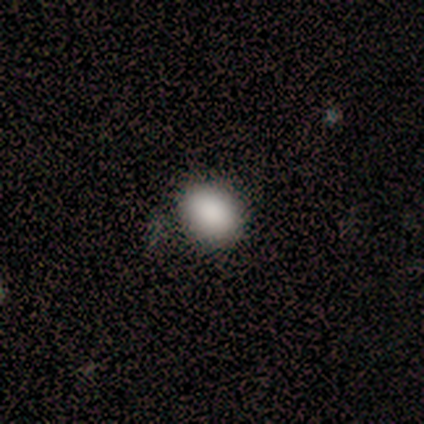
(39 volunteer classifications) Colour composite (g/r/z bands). It shows a smooth galaxy with no disk features (92%) that is in between round and cigar-shaped (56%). Merging: none (59%).